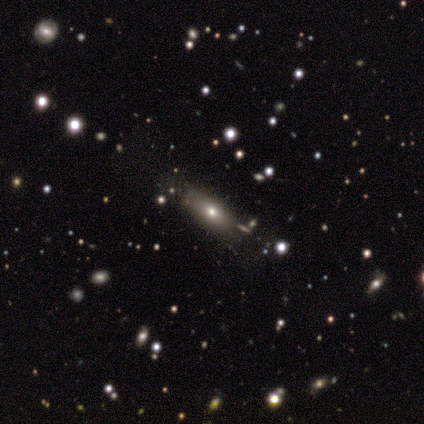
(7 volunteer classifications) Volunteers were most divided on "merging" (3-way tie): none: 33%, minor disturbance: 33%, major disturbance: 33%, merger: 0%. More confident: smooth or featured — smooth (71%); how rounded — in between (60%).